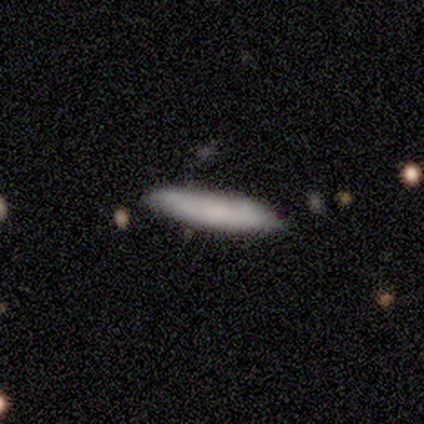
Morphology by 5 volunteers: Smooth or featured? smooth (80%)
How rounded? cigar-shaped (100%)
Merging? none (75%)